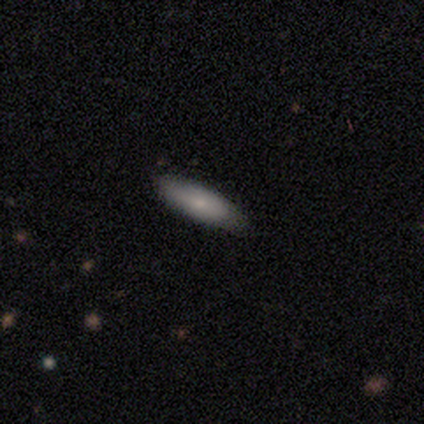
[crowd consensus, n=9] Volunteers were most divided on "merging": none: 57%, minor disturbance: 43%, major disturbance: 0%, merger: 0%. More confident: how rounded — cigar-shaped (67%); smooth or featured — smooth (67%).